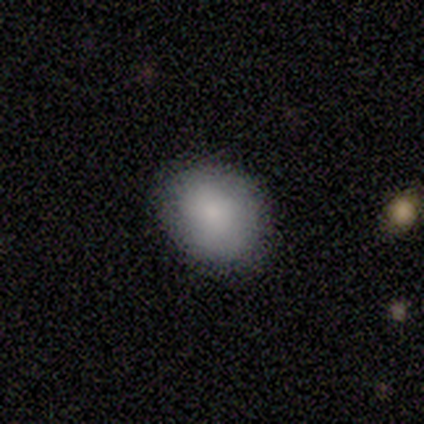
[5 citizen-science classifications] A smooth galaxy with no disk features (100%) that is in between round and cigar-shaped (60%). Merging: none (80%).